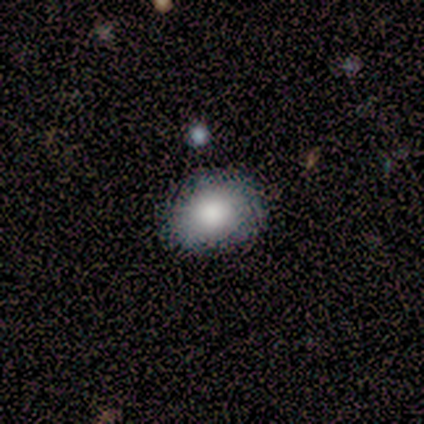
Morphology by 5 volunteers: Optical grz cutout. It shows a smooth galaxy with no disk features (80%) that is round (50%, tied with in between). Merging: none (50%).